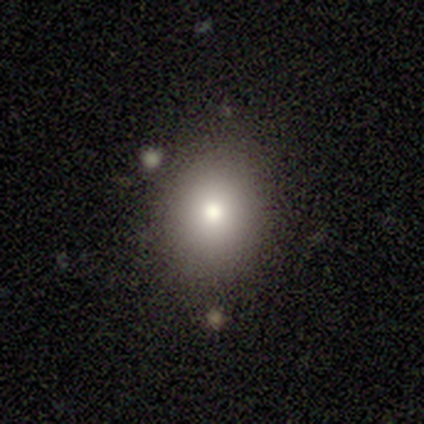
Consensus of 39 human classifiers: Smooth or featured?
  - smooth: 77% *
  - featured or disk: 13%
  - star or artifact: 10%
How rounded?
  - round: 60% *
  - in between: 40%
  - cigar-shaped: 0%
Merging?
  - none: 80% *
  - minor disturbance: 17%
  - major disturbance: 3%
  - merger: 0%